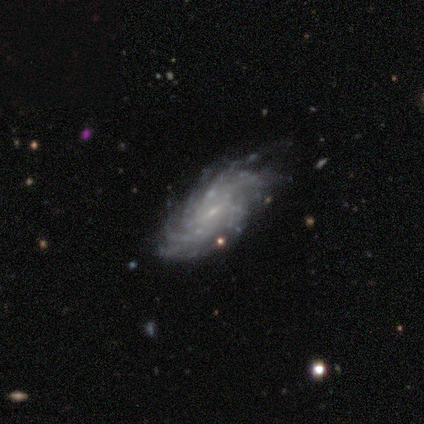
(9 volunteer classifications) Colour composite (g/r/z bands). It shows a featured or disk galaxy (89%) with a weak bar (57%), more than 4 (43%, tied with can't tell) tight (86%) spiral arms (100%) and a small central bulge (100%). Merging: none (50%, tied with minor disturbance).